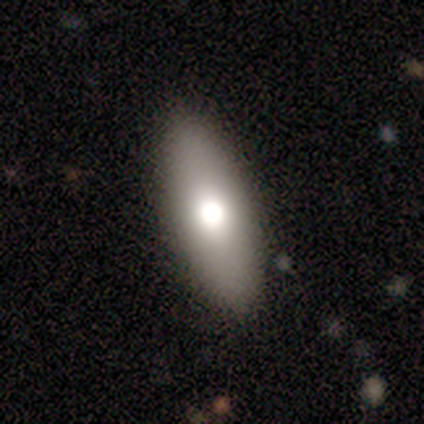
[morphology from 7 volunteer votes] smooth_or_featured: smooth (p=0.86) [alt: featured or disk p=0.14]
how_rounded: in between (p=0.83) [alt: cigar-shaped p=0.17]
merging: none (p=0.86) [alt: minor disturbance p=0.14]